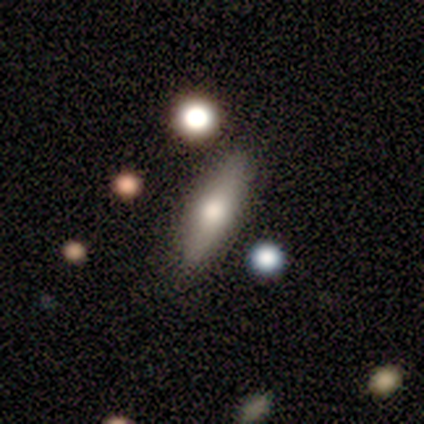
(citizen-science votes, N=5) Smooth or featured: smooth — 80% (featured or disk — 20%)
How rounded: in between — 50% (tied with cigar-shaped — 50%)
Merging: none — 100%